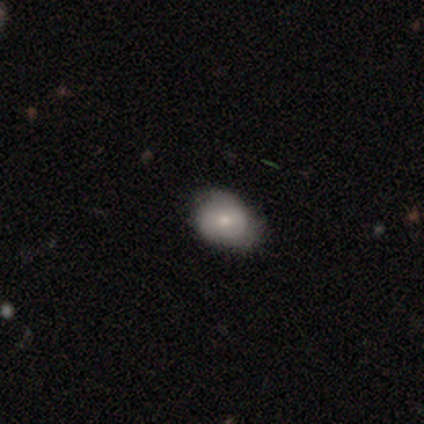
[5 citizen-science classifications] featured or disk 80%, smooth 20%, star or artifact 0%. Down the decision tree: edge-on disk — no (100%); bar — no (75%); spiral arms — no (100%); bulge size — small (50%); merging — minor disturbance (60%).